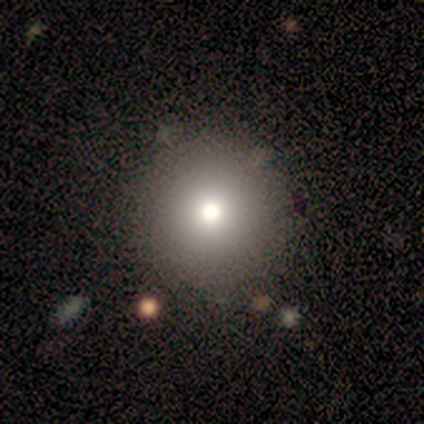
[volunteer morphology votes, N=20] Smooth or featured: smooth — 65% (star or artifact — 20%)
How rounded: round — 92% (in between — 8%)
Merging: none — 62% (minor disturbance — 31%)